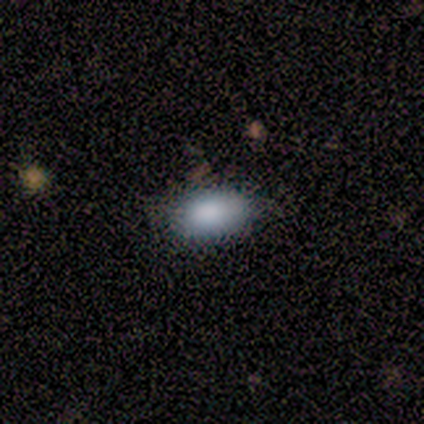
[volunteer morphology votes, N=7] smooth_or_featured: smooth (p=0.86) [alt: featured or disk p=0.14]
how_rounded: in between (p=1.00)
merging: none (p=0.86) [alt: minor disturbance p=0.14]